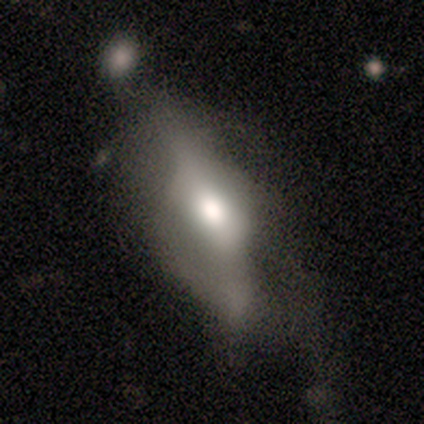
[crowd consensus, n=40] Overall: featured or disk (50%; smooth 45%). Edge-on disk: no (70%; yes 30%). Bar: weak (43%; no 36%). Spiral arms: no (57%; yes 43%). Bulge size: large (43%; moderate 36%). Merging: major disturbance (50%; minor disturbance 24%).